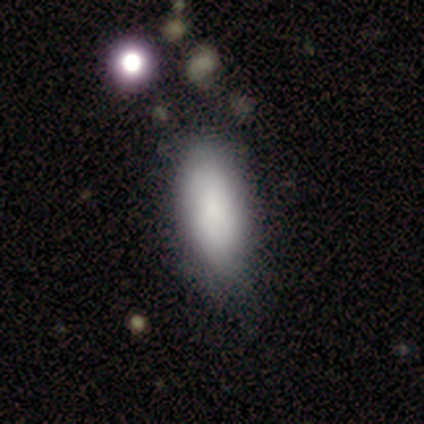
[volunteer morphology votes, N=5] This is clearly a smooth galaxy (100%). How rounded: clearly in between (80%). Merging: likely minor disturbance (60%).